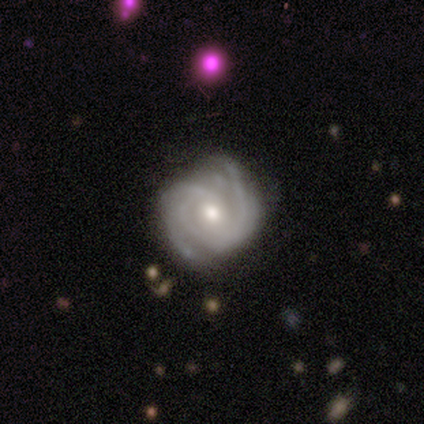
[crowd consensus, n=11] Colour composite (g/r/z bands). It shows a featured or disk galaxy (91%) with no bar (60%), 3 (50%) tight (50%, tied with medium) spiral arms (100%) and a moderate central bulge (90%). Merging: none (82%).